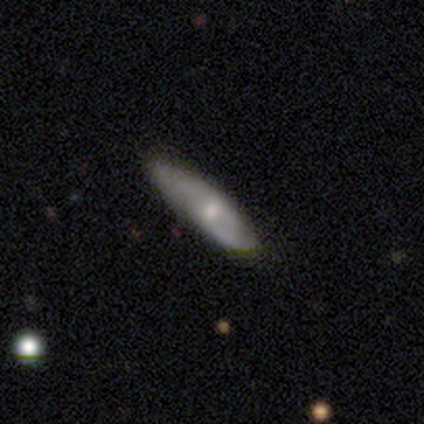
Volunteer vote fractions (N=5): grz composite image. It shows a smooth galaxy with no disk features (60%) that is in between round and cigar-shaped (67%). Merging: none (80%).